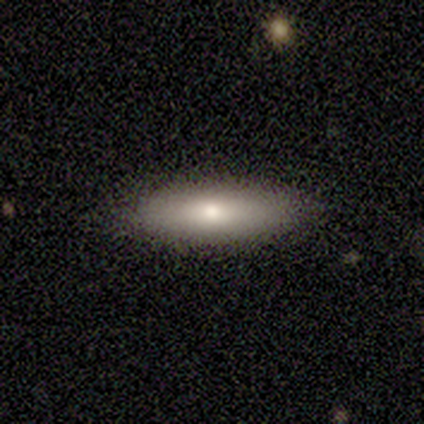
Smooth or featured? 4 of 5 (80%) said smooth. How rounded? 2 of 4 (50%, tied with cigar-shaped) said in between. Merging? 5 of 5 (100%) said none.